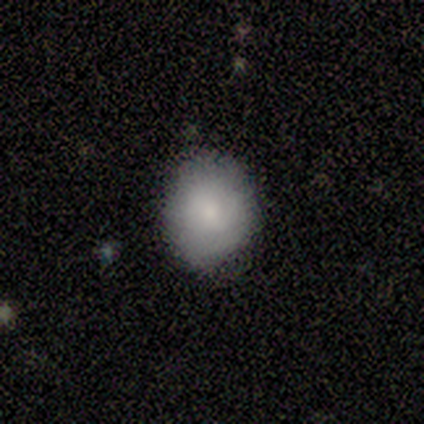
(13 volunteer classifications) A smooth galaxy with no disk features (85%) that is round (64%).

Vote fractions:
- Smooth or featured? smooth: 85% / featured or disk: 8% / star or artifact: 8%
- How rounded? round: 64% / in between: 36% / cigar-shaped: 0%
- Merging? none: 75% / minor disturbance: 25% / major disturbance: 0% / merger: 0%